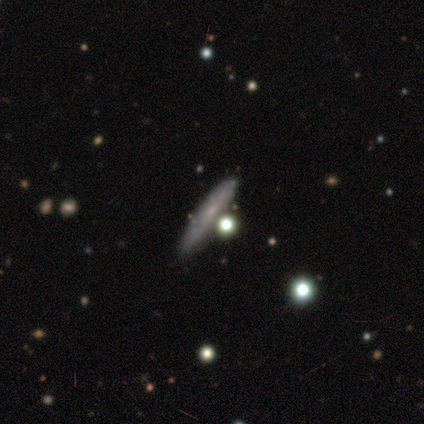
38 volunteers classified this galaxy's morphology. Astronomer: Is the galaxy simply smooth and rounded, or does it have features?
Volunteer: smooth — 63%.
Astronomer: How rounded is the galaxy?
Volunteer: cigar-shaped — 92%.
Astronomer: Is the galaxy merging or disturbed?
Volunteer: none — 81%.